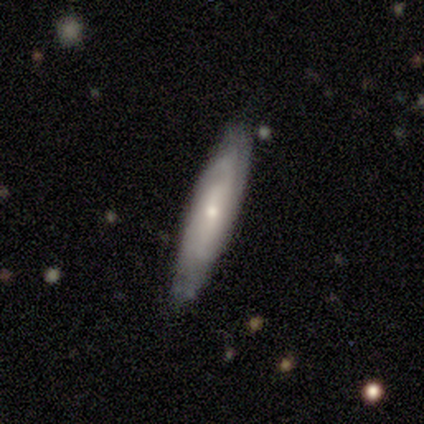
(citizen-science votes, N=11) Smooth or featured?
  - featured or disk: 55% *
  - smooth: 45%
  - star or artifact: 0%
Edge-on disk?
  - no: 67% *
  - yes: 33%
Bar?
  - no: 75% *
  - weak: 25%
  - strong: 0%
Spiral arms?
  - yes: 50% * (tied)
  - no: 50% * (tied)
Spiral winding?
  - tight: 50% * (tied)
  - medium: 50% * (tied)
  - loose: 0%
Spiral arm count?
  - 2: 50% * (tied)
  - can't tell: 50% * (tied)
  - 1: 0%
  - 3: 0%
  - 4: 0%
  - more than 4: 0%
Bulge size?
  - small: 75% *
  - moderate: 25%
  - dominant: 0%
  - large: 0%
  - none: 0%
Merging?
  - none: 64% *
  - minor disturbance: 18%
  - major disturbance: 18%
  - merger: 0%